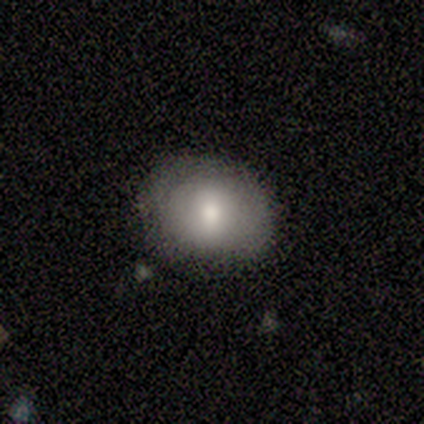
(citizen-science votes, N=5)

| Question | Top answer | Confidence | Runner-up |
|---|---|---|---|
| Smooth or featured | smooth | 60% | featured or disk (20%) |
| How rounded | round | 67% | in between (33%) |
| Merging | none | 75% | minor disturbance (25%) |